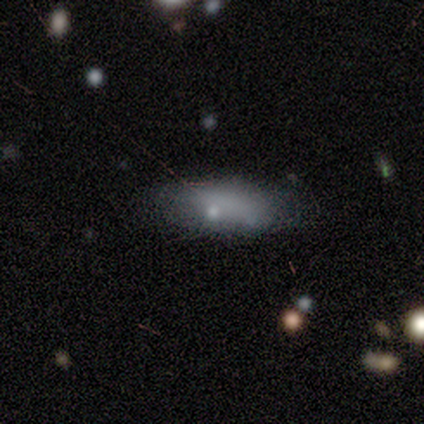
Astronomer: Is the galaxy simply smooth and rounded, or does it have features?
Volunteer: smooth — 80%.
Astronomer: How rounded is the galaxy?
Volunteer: in between — 75%.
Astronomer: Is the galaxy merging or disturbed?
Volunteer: none — 100%.